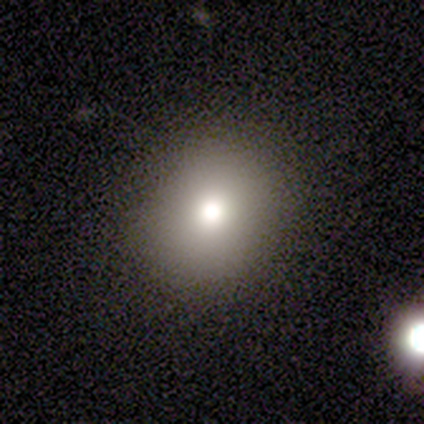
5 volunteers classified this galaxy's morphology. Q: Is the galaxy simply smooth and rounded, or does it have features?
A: smooth — 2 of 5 (40%, tied with featured or disk).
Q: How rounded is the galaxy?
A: round — 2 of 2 (100%).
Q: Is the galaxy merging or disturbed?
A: none — 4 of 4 (100%).